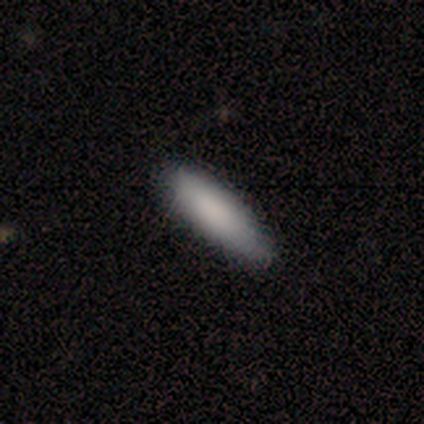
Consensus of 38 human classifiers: smooth 92%, featured or disk 5%, star or artifact 3%. Down the decision tree: how rounded — cigar-shaped (60%); merging — none (92%).